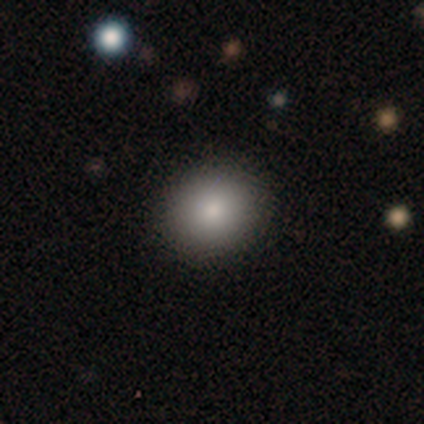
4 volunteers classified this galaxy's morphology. This is clearly a smooth galaxy (100%). How rounded: likely round (75%). Merging: clearly none (100%).